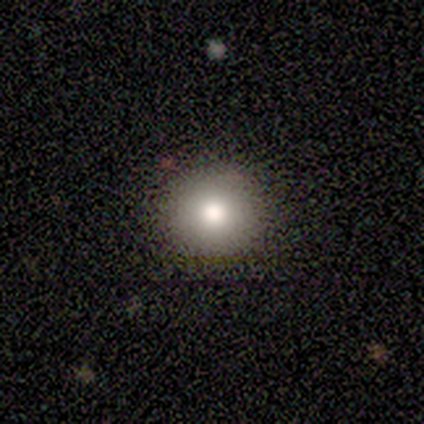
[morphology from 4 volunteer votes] smooth_or_featured: smooth (p=0.75) [alt: featured or disk p=0.25]
how_rounded: round (p=1.00)
merging: none (p=0.75) [alt: major disturbance p=0.25]